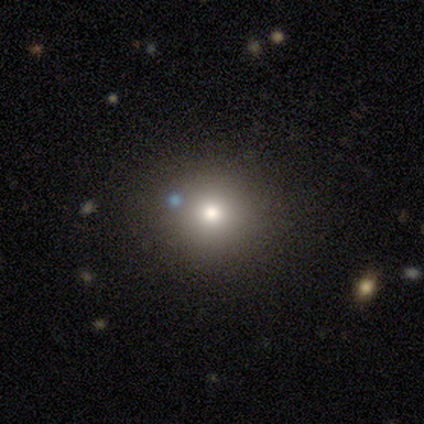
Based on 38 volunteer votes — Volunteers were most divided on "smooth or featured": smooth: 71%, star or artifact: 16%, featured or disk: 13%. More confident: how rounded — round (96%); merging — none (72%).